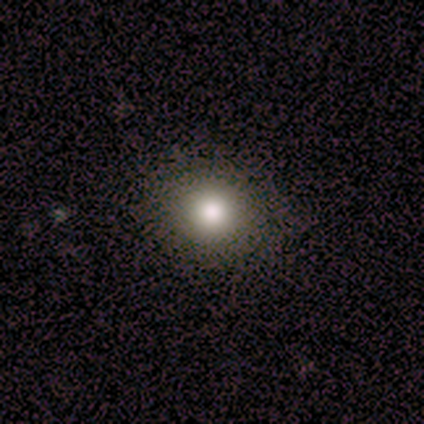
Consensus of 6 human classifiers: smooth 83%, star or artifact 17%, featured or disk 0%. Down the decision tree: how rounded — round (100%); merging — none (100%).